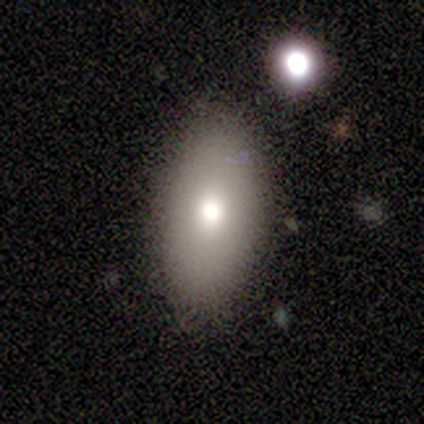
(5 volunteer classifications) Q: Smooth or featured?
A: smooth (80%); runner-up: featured or disk (20%)
Q: How rounded?
A: in between (100%)
Q: Merging?
A: none (80%); runner-up: minor disturbance (20%)